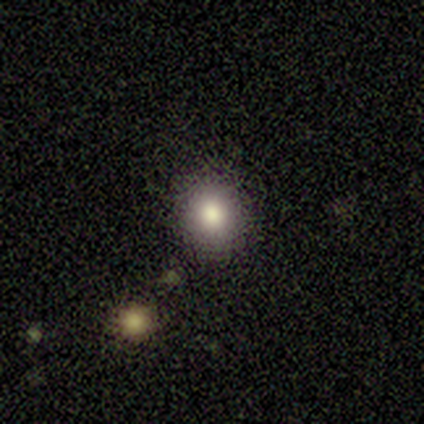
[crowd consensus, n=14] Smooth or featured? 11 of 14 (79%) said smooth. How rounded? 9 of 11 (82%) said round. Merging? 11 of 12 (92%) said none.